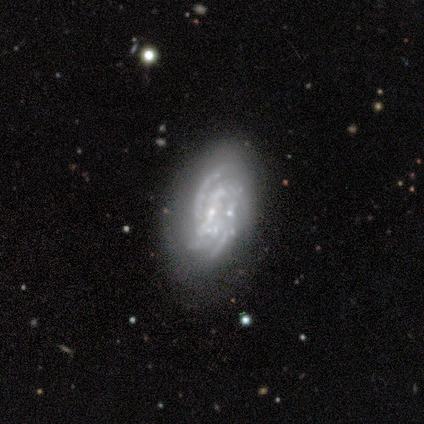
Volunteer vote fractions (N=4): Volunteers were most divided on "bar": no: 67%, weak: 33%, strong: 0%. More confident: edge-on disk — no (100%); spiral arms — yes (100%); smooth or featured — featured or disk (75%); spiral winding — tight (67%); spiral arm count — 4 (67%); bulge size — small (67%); merging — minor disturbance (67%).